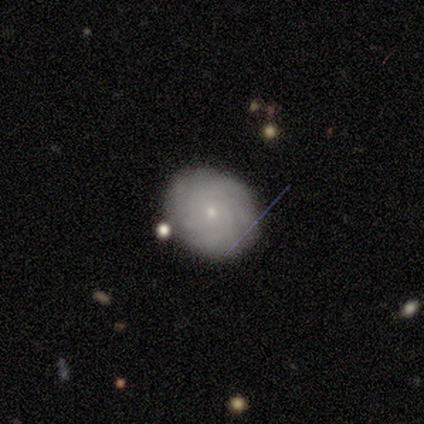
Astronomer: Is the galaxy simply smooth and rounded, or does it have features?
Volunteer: featured or disk — 80%.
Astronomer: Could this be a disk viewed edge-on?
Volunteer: no — 100%.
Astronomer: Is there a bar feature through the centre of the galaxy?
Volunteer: no — 50%.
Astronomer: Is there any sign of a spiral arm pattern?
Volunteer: yes — 75%.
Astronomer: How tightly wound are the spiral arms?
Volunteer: tight — 67%.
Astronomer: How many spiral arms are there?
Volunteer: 3 — 33%, tied with more than 4 and can't tell at 33%.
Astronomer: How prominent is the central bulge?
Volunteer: small — 100%.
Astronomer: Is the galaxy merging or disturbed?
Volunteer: minor disturbance — 60% (runner-up: none, 40%).